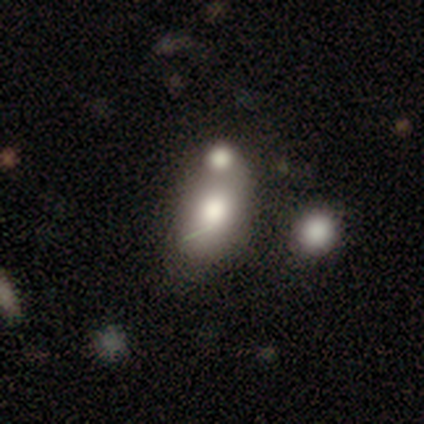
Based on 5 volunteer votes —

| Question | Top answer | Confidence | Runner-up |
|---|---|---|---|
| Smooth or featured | smooth | 80% | star or artifact (20%) |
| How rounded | in between | 75% | round (25%) |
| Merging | merger | 75% | none (25%) |